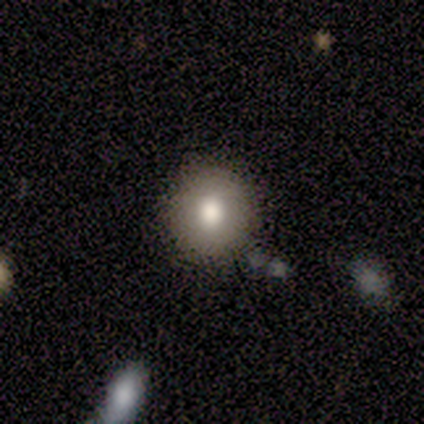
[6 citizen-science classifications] Smooth or featured? 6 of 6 (100%) said smooth. How rounded? 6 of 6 (100%) said round. Merging? 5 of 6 (83%) said none.